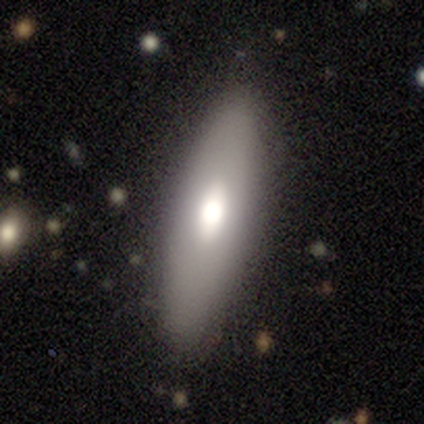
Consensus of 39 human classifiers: Overall: smooth (72%). How rounded: in between (57%; cigar-shaped 43%). Merging: none (79%).